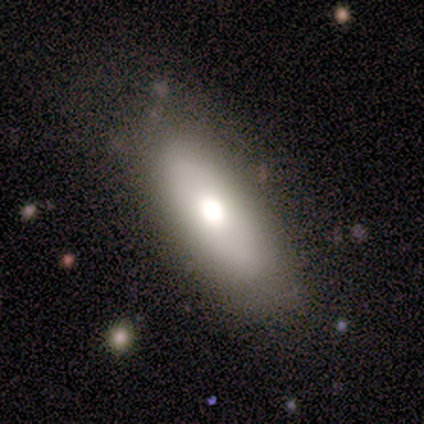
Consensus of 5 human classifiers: Volunteers were most divided on "smooth or featured": smooth: 60%, featured or disk: 40%, star or artifact: 0%. More confident: merging — none (80%); how rounded — in between (67%).